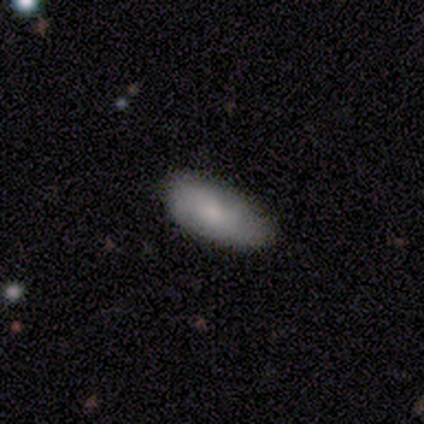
A smooth galaxy with no disk features (100%) that is in between round and cigar-shaped (100%). Merging: none (75%).